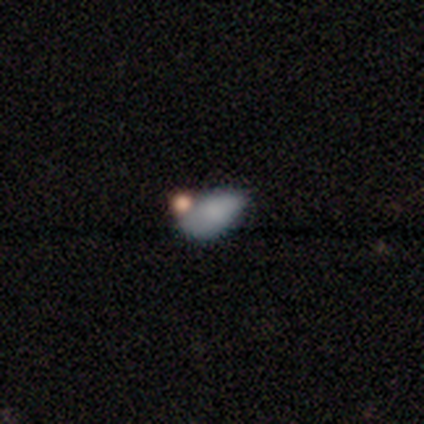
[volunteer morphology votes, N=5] Overall: smooth (100%). How rounded: in between (100%). Merging: none (40%, tied with minor disturbance).